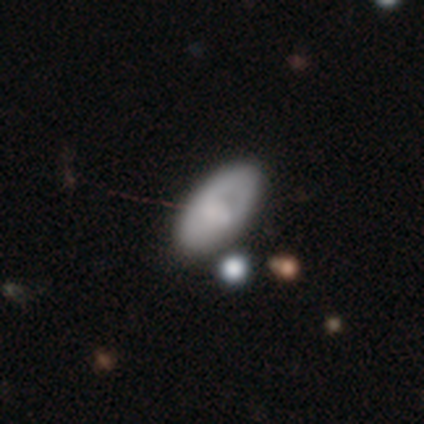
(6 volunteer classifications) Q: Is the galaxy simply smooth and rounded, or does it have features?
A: smooth — 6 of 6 (100%).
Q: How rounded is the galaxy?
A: in between — 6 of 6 (100%).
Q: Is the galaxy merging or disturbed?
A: none — 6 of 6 (100%).